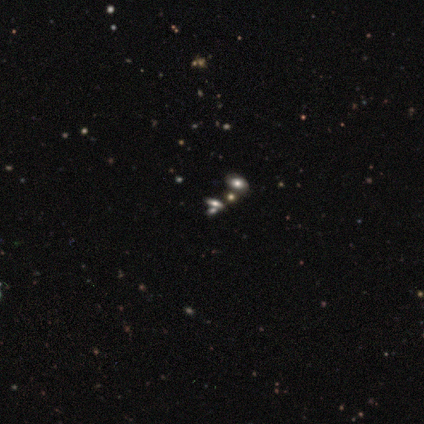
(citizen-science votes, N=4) This appears to be a smooth galaxy with no disk features (50%) that is round (50%, tied with in between). Merging: merger (67%).